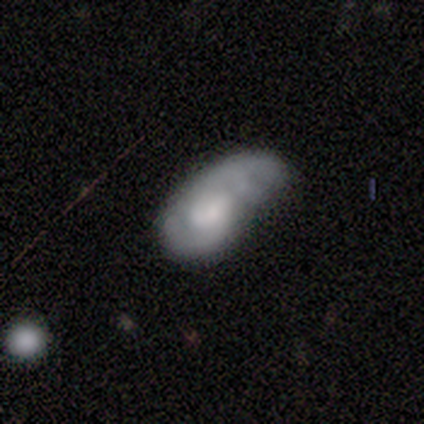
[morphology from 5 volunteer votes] smooth-or-featured: featured or disk: 60% | smooth: 40% | star or artifact: 0%
  disk-edge-on: no: 100% | yes: 0%
    bar: no: 67% | weak: 33% | strong: 0%
    has-spiral-arms: no: 67% | yes: 33%
    bulge-size: moderate: 33% (tied) | small: 33% (tied) | none: 33% (tied) | dominant: 0% | large: 0%
  merging: minor disturbance: 60% | major disturbance: 20% | merger: 20% | none: 0%